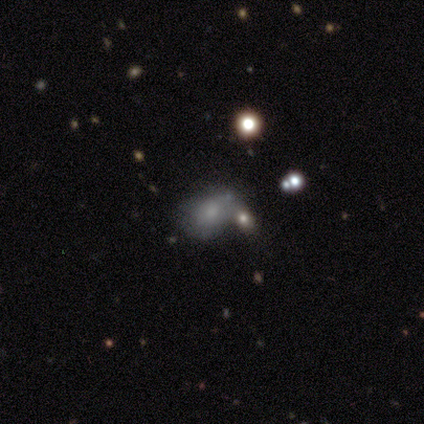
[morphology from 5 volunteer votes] featured or disk 60%, smooth 20%, star or artifact 20%. Down the decision tree: edge-on disk — no (100%); bar — no (67%); spiral arms — no (67%); bulge size — moderate (33%, tied with small and none); merging — none (50%).